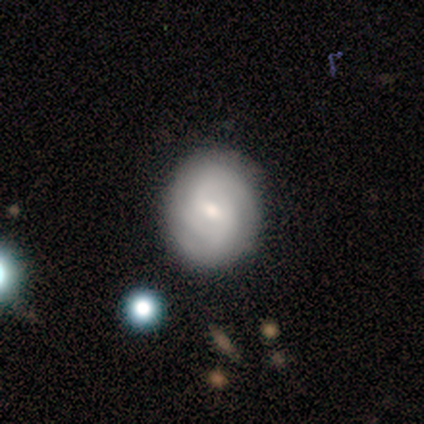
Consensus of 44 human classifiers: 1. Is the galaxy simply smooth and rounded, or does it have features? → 70% featured or disk, 30% smooth, 0% star or artifact.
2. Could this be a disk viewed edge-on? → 94% no, 6% yes.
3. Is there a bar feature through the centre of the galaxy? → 66% weak, 34% no, 0% strong.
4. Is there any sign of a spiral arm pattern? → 83% yes, 17% no.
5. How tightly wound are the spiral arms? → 58% tight, 42% medium, 0% loose.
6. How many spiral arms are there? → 50% 2, 33% 3, 8% 4, 8% can't tell, 0% 1, 0% more than 4.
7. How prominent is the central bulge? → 62% moderate, 34% small, 3% large, 0% dominant, 0% none.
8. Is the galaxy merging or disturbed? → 77% none, 14% minor disturbance, 5% major disturbance, 5% merger.